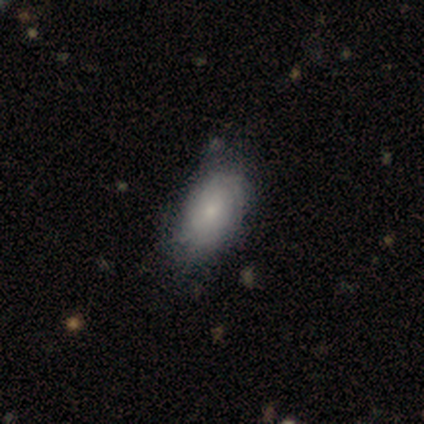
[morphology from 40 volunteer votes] type=smooth (62%); roundness=in between (96%); merging=none (60%).